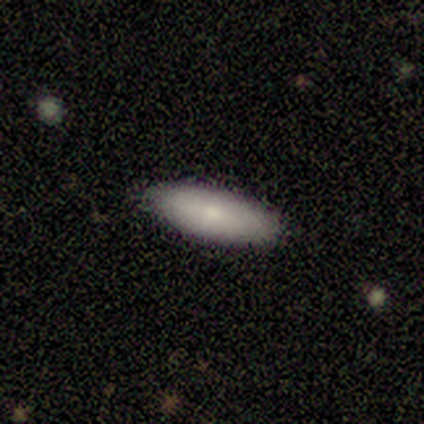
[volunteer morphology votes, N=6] Smooth or featured: smooth — 83% (featured or disk — 17%)
How rounded: in between — 60% (cigar-shaped — 40%)
Merging: none — 83% (minor disturbance — 17%)